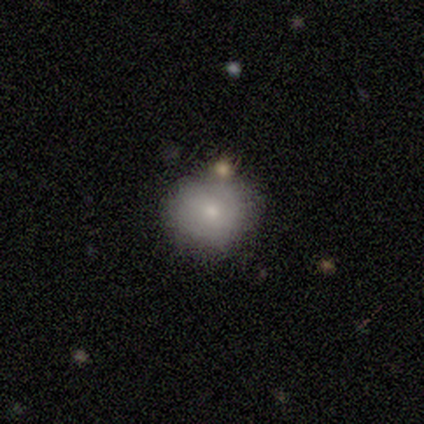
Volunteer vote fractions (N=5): smooth 80%, featured or disk 20%, star or artifact 0%. Down the decision tree: how rounded — round (100%); merging — none (100%).